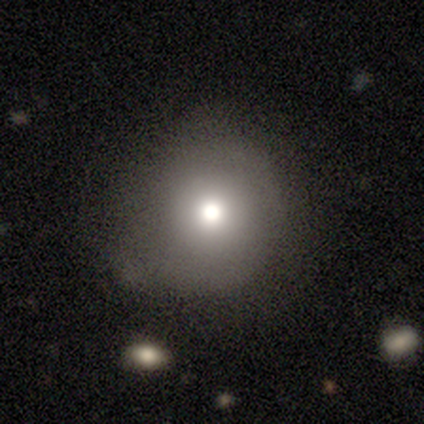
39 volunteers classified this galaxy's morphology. A smooth galaxy with no disk features (79%) that is round (100%). Merging: none (73%).